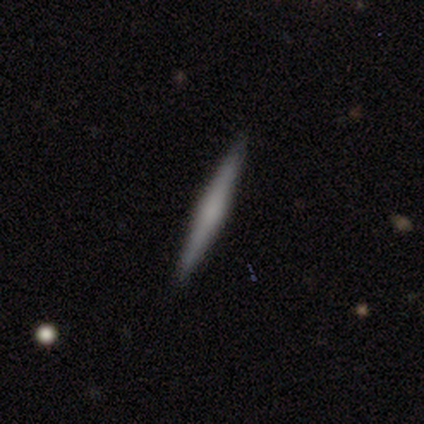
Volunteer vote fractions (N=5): Volunteers were most divided on "smooth or featured": smooth: 60%, featured or disk: 20%, star or artifact: 20%. More confident: how rounded — cigar-shaped (100%); merging — none (100%).